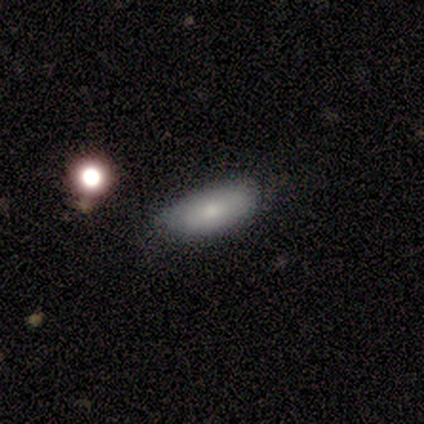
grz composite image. It shows a smooth galaxy with no disk features (100%) that is in between round and cigar-shaped (75%). Merging: none (50%).